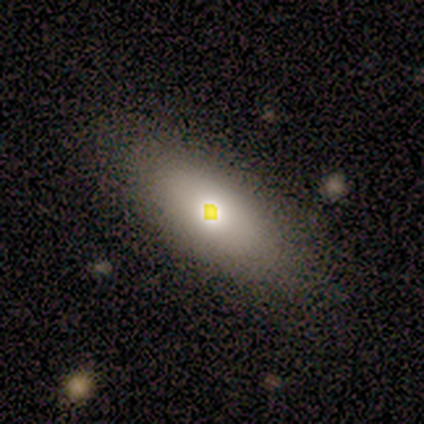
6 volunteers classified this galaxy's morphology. Smooth or featured: featured or disk — 50% (smooth — 33%)
Edge-on disk: no — 67% (yes — 33%)
Bar: no — 100%
Spiral arms: no — 100%
Bulge size: moderate — 100%
Merging: minor disturbance — 60% (none — 40%)